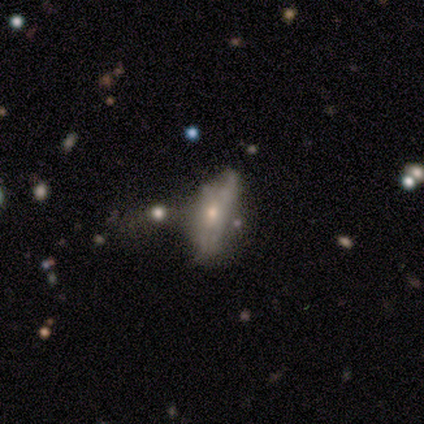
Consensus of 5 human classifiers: Smooth or featured? 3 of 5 (60%) said featured or disk. Edge-on disk? 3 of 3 (100%) said no. Bar? 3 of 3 (100%) said no. Spiral arms? 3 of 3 (100%) said no. Bulge size? 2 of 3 (67%) said moderate. Merging? 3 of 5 (60%) said none.